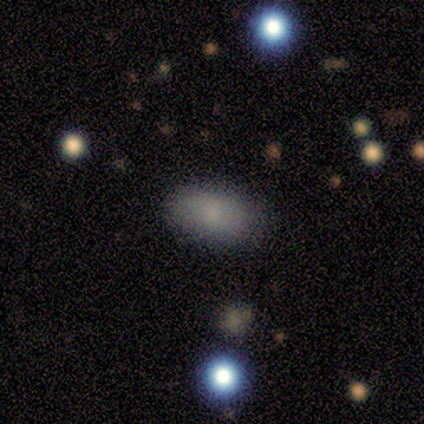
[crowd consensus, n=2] Overall: smooth (100%). How rounded: in between (100%). Merging: none (100%).